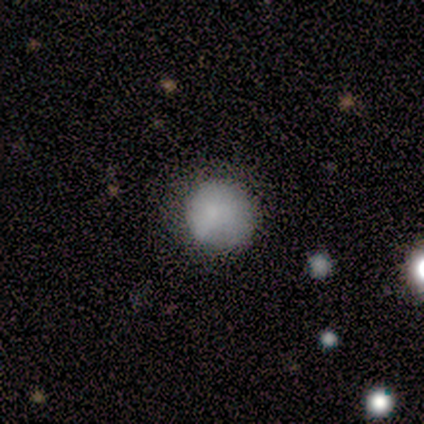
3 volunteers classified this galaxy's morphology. smooth-or-featured: smooth: 67% | star or artifact: 33% | featured or disk: 0%
  how-rounded: round: 100% | in between: 0% | cigar-shaped: 0%
  merging: none: 100% | minor disturbance: 0% | major disturbance: 0% | merger: 0%